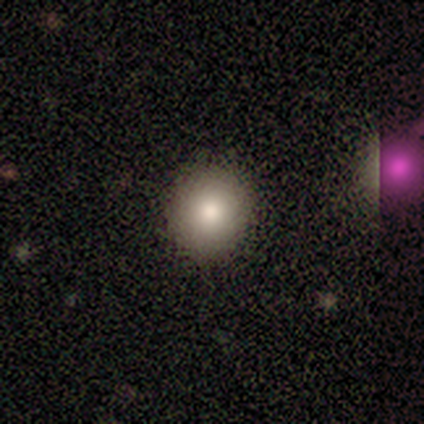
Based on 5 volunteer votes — Smooth or featured?
  - smooth: 80% *
  - star or artifact: 20%
  - featured or disk: 0%
How rounded?
  - round: 75% *
  - in between: 25%
  - cigar-shaped: 0%
Merging?
  - none: 100% *
  - minor disturbance: 0%
  - major disturbance: 0%
  - merger: 0%